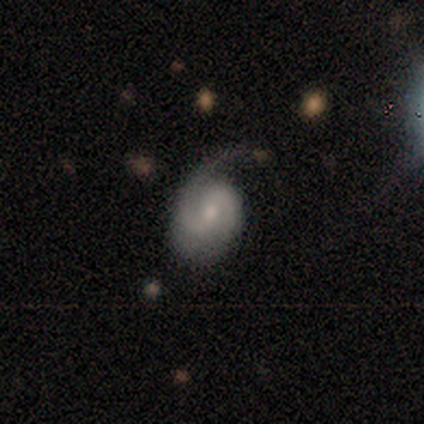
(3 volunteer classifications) A smooth galaxy with no disk features (67%) that is round (50%, tied with in between). Merging: major disturbance (67%).